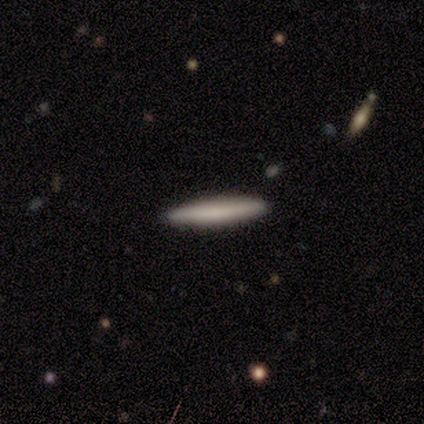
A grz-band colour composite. It shows a featured or disk galaxy (60%) viewed edge-on (100%) with no central bulge (67%). Merging: none (100%).